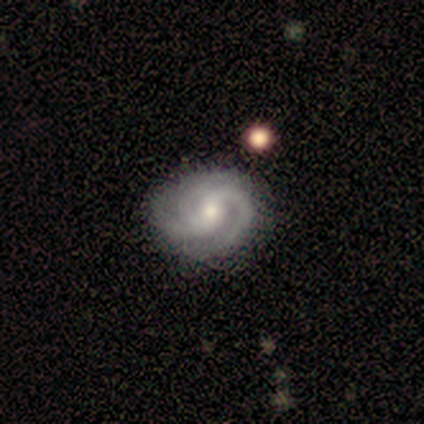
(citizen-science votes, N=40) Q: Smooth or featured?
A: featured or disk (90%); runner-up: smooth (5%)
Q: Edge-on disk?
A: no (100%)
Q: Bar?
A: weak (50%); tied with: no (50%)
Q: Spiral arms?
A: yes (100%)
Q: Spiral winding?
A: tight (56%); runner-up: medium (42%)
Q: Spiral arm count?
A: 3 (58%); runner-up: 2 (31%)
Q: Bulge size?
A: small (50%); runner-up: moderate (36%)
Q: Merging?
A: none (74%); runner-up: minor disturbance (18%)